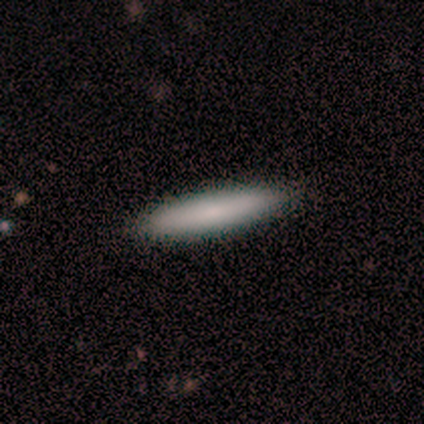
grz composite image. It shows a smooth galaxy with no disk features (100%) that is cigar-shaped (100%). Merging: none (100%).